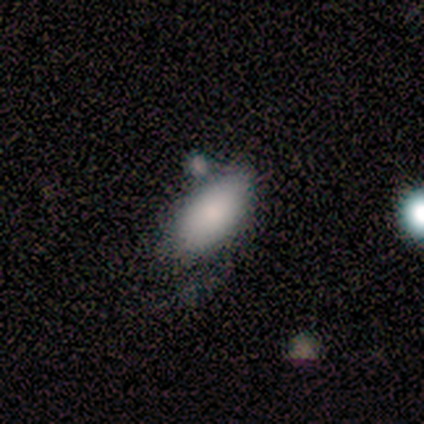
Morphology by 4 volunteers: Overall: smooth (100%). How rounded: in between (100%). Merging: none (75%).